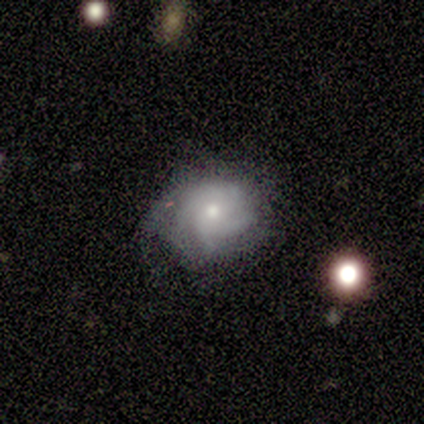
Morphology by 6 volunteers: This appears to be a featured or disk galaxy (100%) with no bar (60%), tight (50%, tied with medium) spiral arms (80%) and a small central bulge (80%). Merging: none (67%).